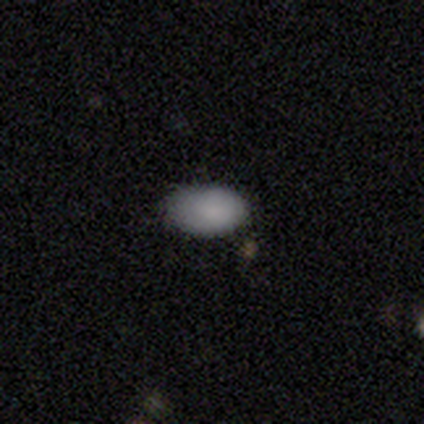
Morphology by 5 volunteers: Smooth or featured? 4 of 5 (80%) said smooth. How rounded? 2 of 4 (50%, tied with in between) said round. Merging? 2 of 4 (50%, tied with minor disturbance) said none.